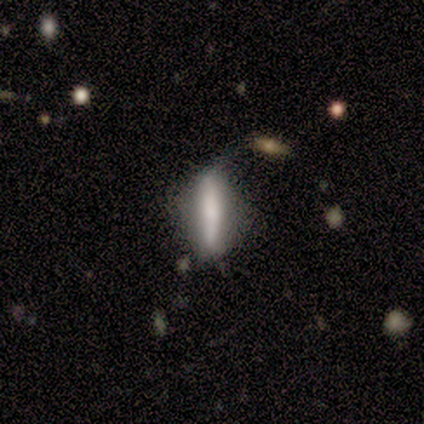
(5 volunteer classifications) Smooth or featured?
  - smooth: 80% *
  - featured or disk: 20%
  - star or artifact: 0%
How rounded?
  - cigar-shaped: 100% *
  - round: 0%
  - in between: 0%
Merging?
  - minor disturbance: 60% *
  - none: 40%
  - major disturbance: 0%
  - merger: 0%